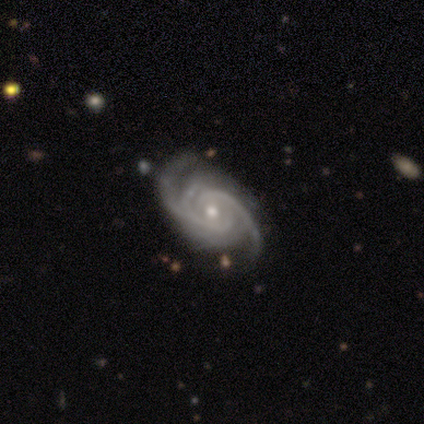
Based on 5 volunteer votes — featured or disk 100%, smooth 0%, star or artifact 0%. Down the decision tree: edge-on disk — no (100%); bar — no (60%); spiral arms — yes (100%); spiral arm count — 3 (60%); spiral winding — tight (60%); bulge size — small (60%); merging — minor disturbance (60%).